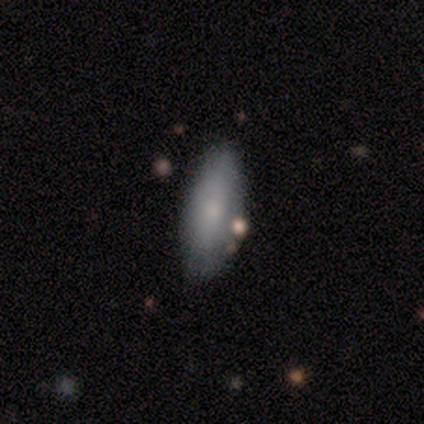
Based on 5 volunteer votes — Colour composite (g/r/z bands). It shows a smooth galaxy with no disk features (80%) that is in between round and cigar-shaped (100%). Merging: none (100%).